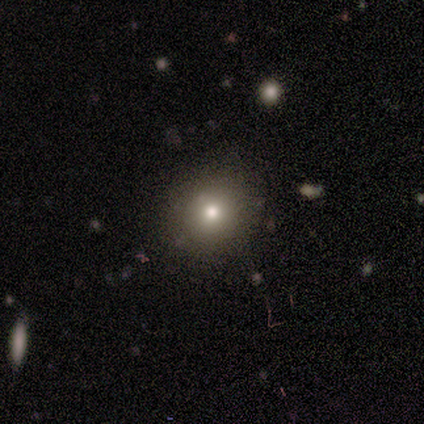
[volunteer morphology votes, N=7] smooth-or-featured: smooth: 86% | featured or disk: 14% | star or artifact: 0%
  how-rounded: round: 100% | in between: 0% | cigar-shaped: 0%
  merging: none: 100% | minor disturbance: 0% | major disturbance: 0% | merger: 0%